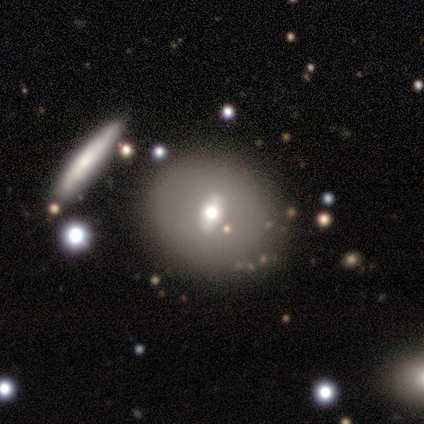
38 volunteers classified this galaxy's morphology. This is possibly a smooth galaxy (47%, tied with featured or disk). How rounded: clearly round (94%). Merging: likely none (78%).